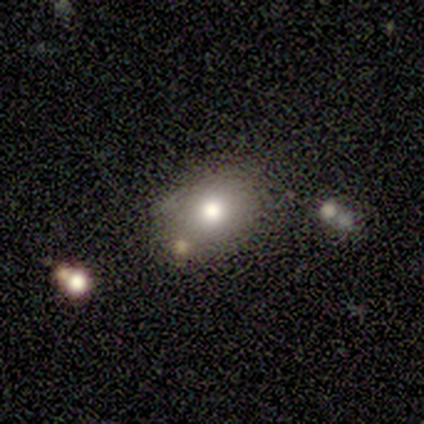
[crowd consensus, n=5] Smooth or featured? 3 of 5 (60%) said featured or disk. Edge-on disk? 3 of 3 (100%) said no. Bar? 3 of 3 (100%) said no. Spiral arms? 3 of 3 (100%) said no. Bulge size? 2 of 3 (67%) said moderate. Merging? 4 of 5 (80%) said none.